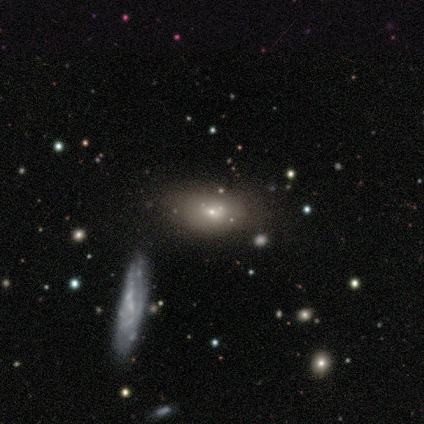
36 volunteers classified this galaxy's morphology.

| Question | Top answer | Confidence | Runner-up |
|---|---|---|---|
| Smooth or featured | smooth | 67% | featured or disk (19%) |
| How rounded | in between | 83% | round (8%) |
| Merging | none | 68% | minor disturbance (19%) |